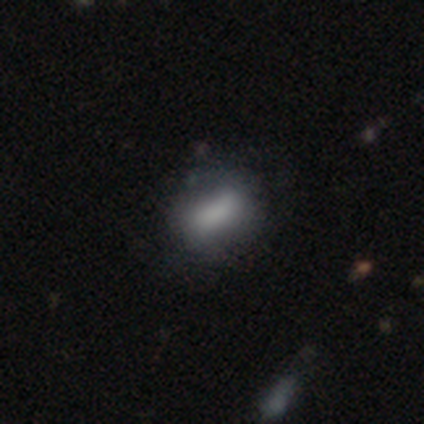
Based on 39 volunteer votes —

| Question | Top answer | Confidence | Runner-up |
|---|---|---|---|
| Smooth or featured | smooth | 72% | featured or disk (23%) |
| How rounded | in between | 82% | round (11%) |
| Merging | none | 51% | minor disturbance (27%) |